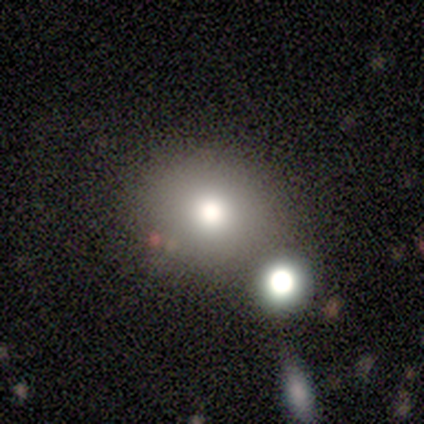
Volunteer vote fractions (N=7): smooth-or-featured: smooth: 86% | featured or disk: 14% | star or artifact: 0%
  how-rounded: round: 83% | in between: 17% | cigar-shaped: 0%
  merging: none: 57% | minor disturbance: 43% | major disturbance: 0% | merger: 0%